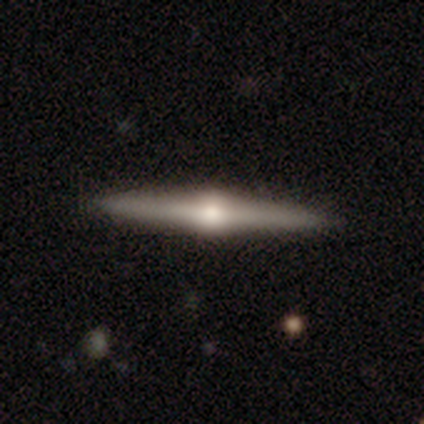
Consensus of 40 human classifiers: Morphology: type=featured or disk (80%); edge-on=yes (100%); edge-on bulge=rounded (97%); merging=none (95%).